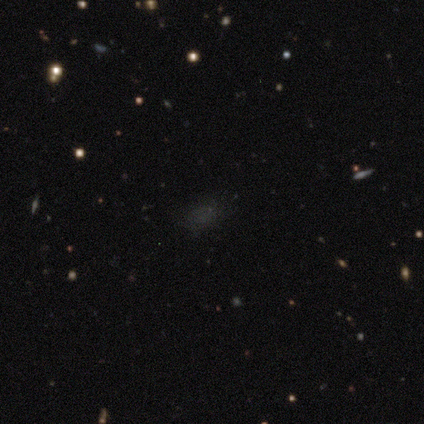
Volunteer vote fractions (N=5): Smooth or featured?
  - smooth: 40% * (tied)
  - star or artifact: 40% * (tied)
  - featured or disk: 20%
How rounded?
  - round: 50% * (tied)
  - in between: 50% * (tied)
  - cigar-shaped: 0%
Merging?
  - none: 67% *
  - minor disturbance: 33%
  - major disturbance: 0%
  - merger: 0%